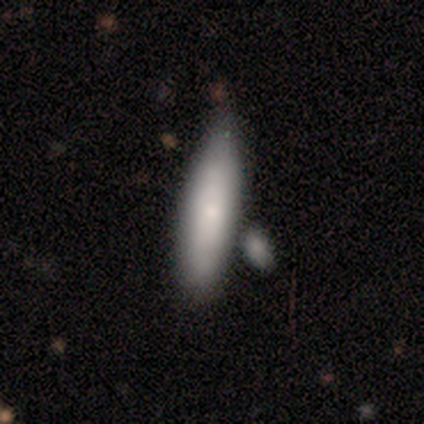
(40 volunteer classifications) Overall: smooth (72%). How rounded: cigar-shaped (66%; in between 34%). Merging: none (38%; merger 30%).